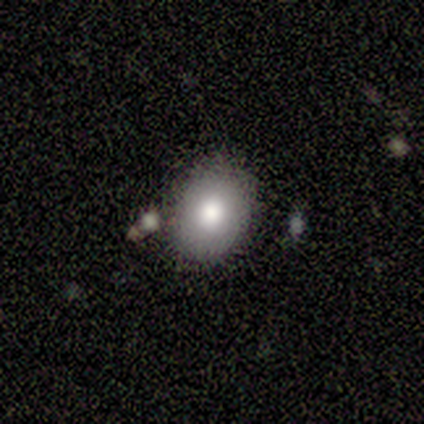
smooth_or_featured: smooth (p=0.60) [alt: star or artifact p=0.40]
how_rounded: in between (p=0.67) [alt: round p=0.33]
merging: none (p=0.67) [alt: merger p=0.33]